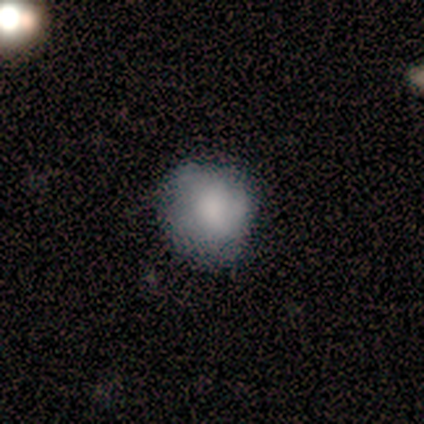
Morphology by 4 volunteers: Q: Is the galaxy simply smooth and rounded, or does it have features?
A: smooth — 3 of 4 (75%).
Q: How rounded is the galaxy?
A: round — 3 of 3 (100%).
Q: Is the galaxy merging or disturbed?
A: none — 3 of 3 (100%).